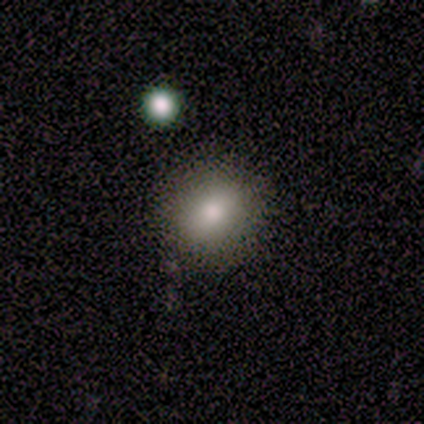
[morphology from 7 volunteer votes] A smooth galaxy with no disk features (86%) that is round (67%).

Vote fractions:
- Smooth or featured? smooth: 86% / featured or disk: 14% / star or artifact: 0%
- How rounded? round: 67% / in between: 33% / cigar-shaped: 0%
- Merging? none: 86% / merger: 14% / minor disturbance: 0% / major disturbance: 0%